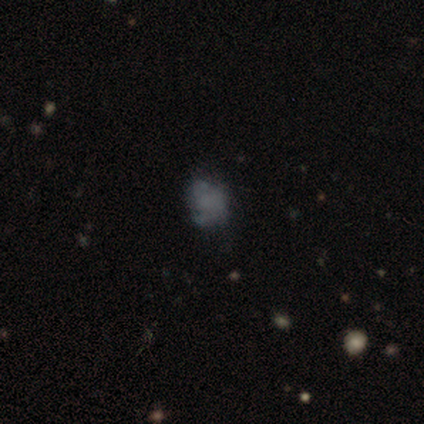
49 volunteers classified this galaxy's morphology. Smooth or featured?
  - featured or disk: 49% *
  - smooth: 41%
  - star or artifact: 10%
Edge-on disk?
  - no: 100% *
  - yes: 0%
Bar?
  - no: 96% *
  - weak: 4%
  - strong: 0%
Spiral arms?
  - no: 62% *
  - yes: 38%
Bulge size?
  - none: 79% *
  - small: 12%
  - large: 4%
  - moderate: 4%
  - dominant: 0%
Merging?
  - none: 43% *
  - minor disturbance: 41%
  - major disturbance: 14%
  - merger: 2%